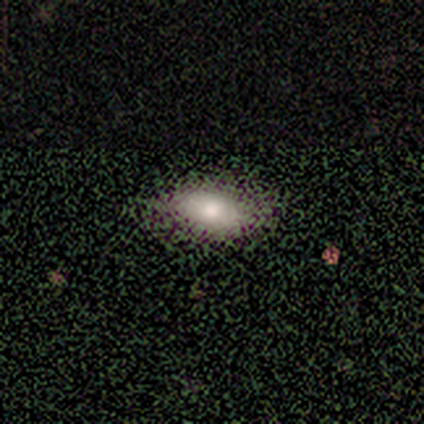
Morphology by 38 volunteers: A smooth galaxy with no disk features (68%) that is in between round and cigar-shaped (77%).

Vote fractions:
- Smooth or featured? smooth: 68% / featured or disk: 16% / star or artifact: 16%
- How rounded? in between: 77% / cigar-shaped: 15% / round: 8%
- Merging? none: 75% / minor disturbance: 12% / major disturbance: 12% / merger: 0%